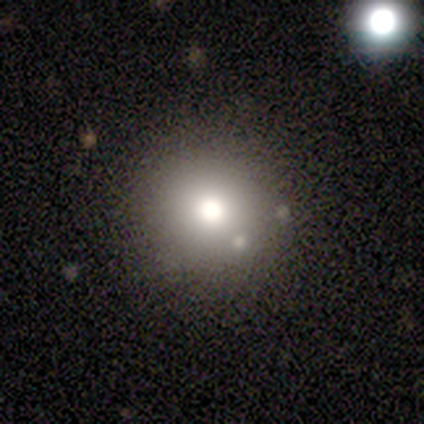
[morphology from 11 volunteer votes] smooth_or_featured: smooth (p=0.91) [alt: star or artifact p=0.09]
how_rounded: round (p=1.00)
merging: none (p=0.80) [alt: minor disturbance p=0.20]